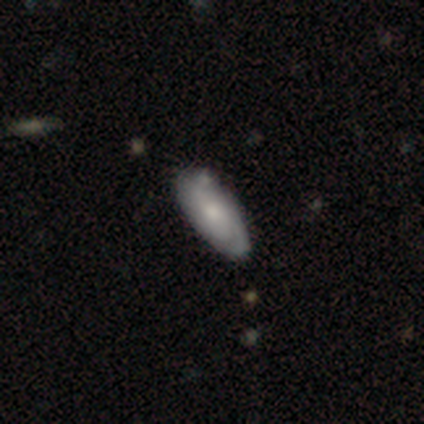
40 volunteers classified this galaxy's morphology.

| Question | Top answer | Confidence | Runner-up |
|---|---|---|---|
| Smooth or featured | smooth | 52% | featured or disk (42%) |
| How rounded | in between | 90% | cigar-shaped (10%) |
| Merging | none | 76% | minor disturbance (21%) |